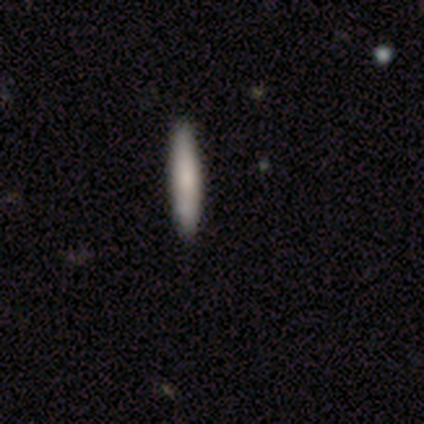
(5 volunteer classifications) This appears to be a smooth galaxy with no disk features (60%) that is cigar-shaped (100%). Merging: none (100%).